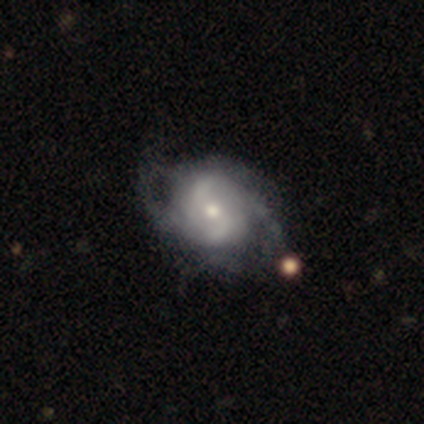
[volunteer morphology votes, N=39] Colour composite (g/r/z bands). It shows a featured or disk galaxy (77%) with no bar (73%), 2 (70%) medium (41%) spiral arms (90%) and a moderate central bulge (50%). Merging: none (54%).